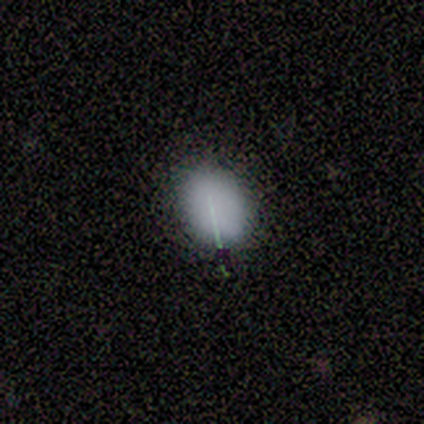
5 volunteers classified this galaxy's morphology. Overall: smooth (80%). How rounded: round (50%, tied with in between). Merging: none (50%, tied with minor disturbance).